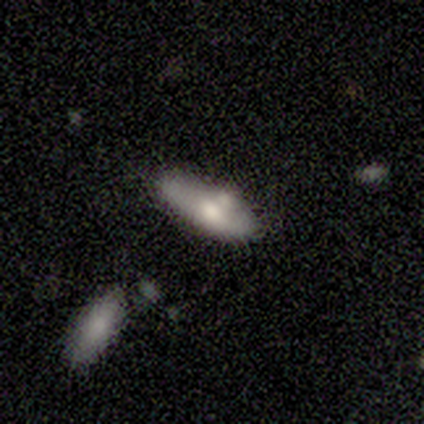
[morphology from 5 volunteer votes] smooth-or-featured: smooth: 100% | featured or disk: 0% | star or artifact: 0%
  how-rounded: cigar-shaped: 60% | in between: 40% | round: 0%
  merging: none: 80% | minor disturbance: 20% | major disturbance: 0% | merger: 0%